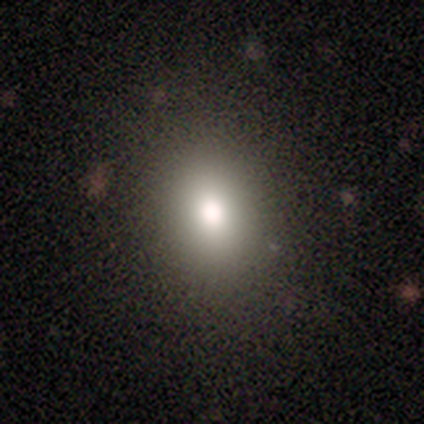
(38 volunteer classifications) A smooth galaxy with no disk features (82%) that is in between round and cigar-shaped (58%).

Vote fractions:
- Smooth or featured? smooth: 82% / featured or disk: 11% / star or artifact: 8%
- How rounded? in between: 58% / round: 42% / cigar-shaped: 0%
- Merging? none: 71% / minor disturbance: 6% / major disturbance: 3% / merger: 0%